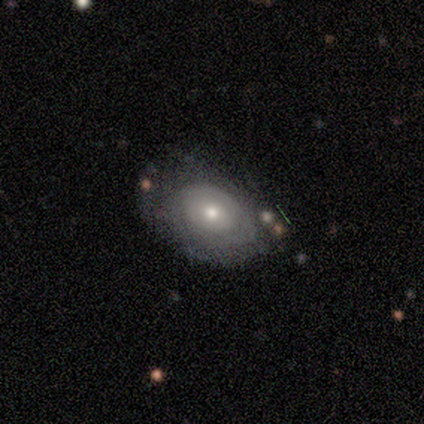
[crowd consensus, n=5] This appears to be a featured or disk galaxy (80%) with no bar (67%), no spiral arms (67%) and a large central bulge (67%). Merging: none (80%).